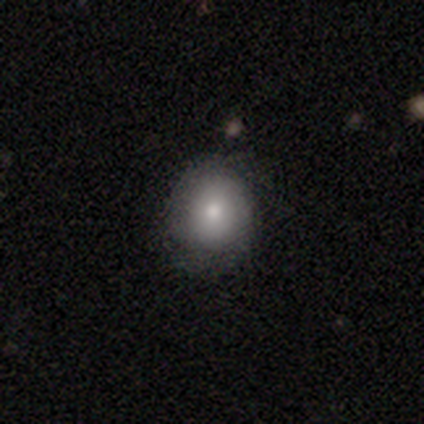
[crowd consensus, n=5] Overall: featured or disk (60%; smooth 40%). Edge-on disk: no (100%). Bar: no (67%; strong 33%). Spiral arms: no (100%). Bulge size: small (67%; moderate 33%). Merging: none (80%).